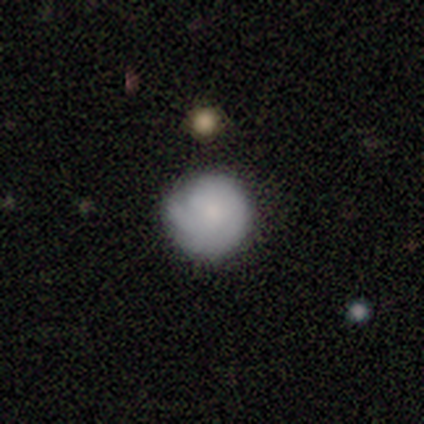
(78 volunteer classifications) A smooth galaxy with no disk features (59%) that is round (96%).

Vote fractions:
- Smooth or featured? smooth: 59% / featured or disk: 35% / star or artifact: 6%
- How rounded? round: 96% / in between: 4% / cigar-shaped: 0%
- Merging? none: 41% / minor disturbance: 8% / major disturbance: 3% / merger: 3%